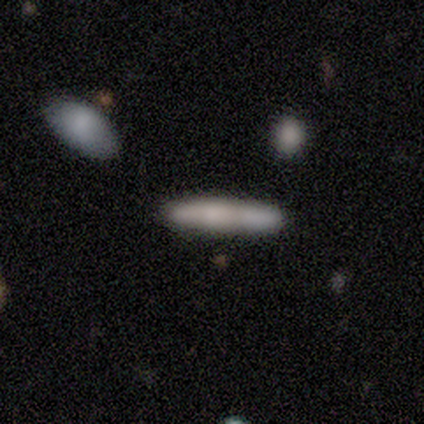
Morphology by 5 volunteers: Smooth or featured?
  - smooth: 80% *
  - featured or disk: 20%
  - star or artifact: 0%
How rounded?
  - cigar-shaped: 100% *
  - round: 0%
  - in between: 0%
Merging?
  - none: 40% * (tied)
  - minor disturbance: 40% * (tied)
  - merger: 20%
  - major disturbance: 0%